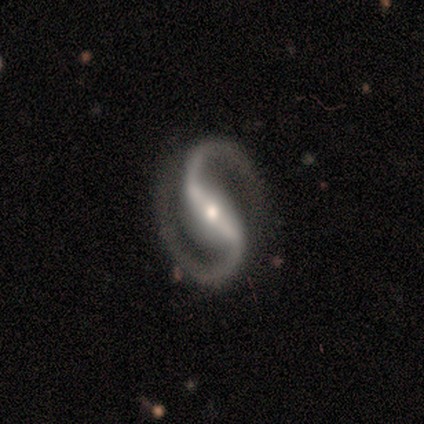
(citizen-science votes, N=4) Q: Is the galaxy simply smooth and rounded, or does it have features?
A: featured or disk — 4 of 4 (100%).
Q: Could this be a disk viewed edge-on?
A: no — 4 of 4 (100%).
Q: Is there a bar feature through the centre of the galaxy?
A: strong — 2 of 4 (50%).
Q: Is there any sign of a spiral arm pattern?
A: yes — 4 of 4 (100%).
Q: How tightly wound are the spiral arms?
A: medium — 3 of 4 (75%).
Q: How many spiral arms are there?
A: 2 — 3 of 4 (75%).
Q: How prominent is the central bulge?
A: moderate — 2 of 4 (50%).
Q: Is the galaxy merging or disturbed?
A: none — 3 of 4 (75%).